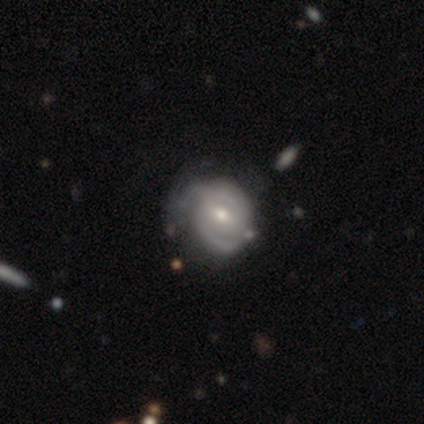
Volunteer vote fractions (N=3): Overall: smooth (67%; featured or disk 33%). How rounded: round (100%). Merging: minor disturbance (67%; none 33%).